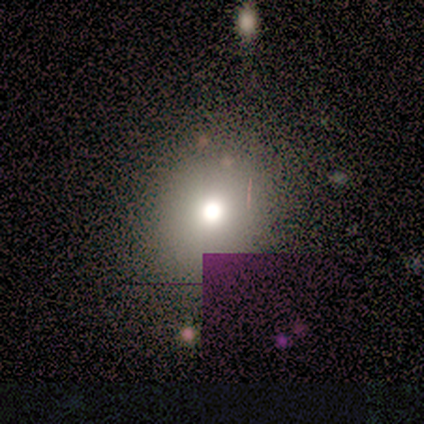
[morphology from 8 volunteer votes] Smooth or featured: smooth — 88% (featured or disk — 12%)
How rounded: round — 86% (in between — 14%)
Merging: none — 88% (merger — 12%)